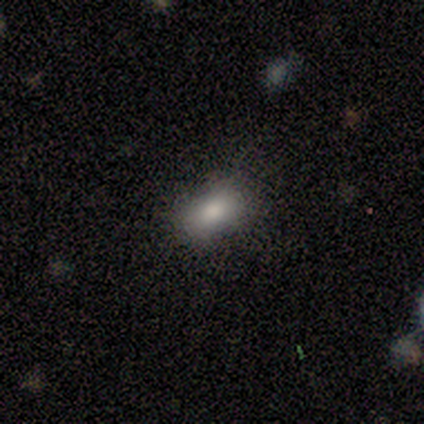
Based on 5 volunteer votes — Smooth or featured?
  - smooth: 80% *
  - featured or disk: 20%
  - star or artifact: 0%
How rounded?
  - in between: 75% *
  - cigar-shaped: 25%
  - round: 0%
Merging?
  - none: 80% *
  - minor disturbance: 20%
  - major disturbance: 0%
  - merger: 0%